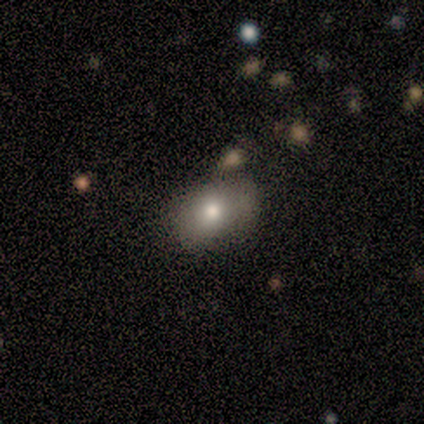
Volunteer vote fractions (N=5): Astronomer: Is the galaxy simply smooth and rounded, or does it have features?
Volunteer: smooth — 100%.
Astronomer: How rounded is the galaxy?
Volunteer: in between — 60% (runner-up: round, 40%).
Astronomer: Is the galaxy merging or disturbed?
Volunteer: none — 60%.